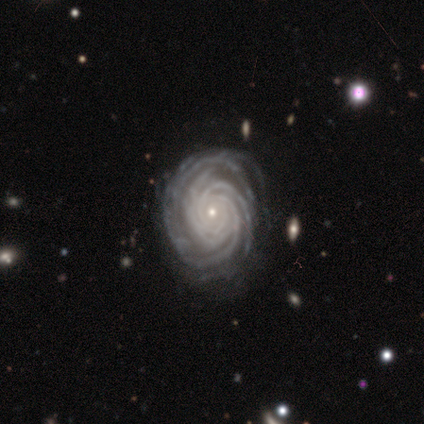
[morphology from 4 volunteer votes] Smooth or featured?
  - featured or disk: 75% *
  - smooth: 25%
  - star or artifact: 0%
Edge-on disk?
  - no: 100% *
  - yes: 0%
Bar?
  - no: 100% *
  - strong: 0%
  - weak: 0%
Spiral arms?
  - yes: 100% *
  - no: 0%
Spiral winding?
  - tight: 100% *
  - medium: 0%
  - loose: 0%
Spiral arm count?
  - 4: 67% *
  - more than 4: 33%
  - 1: 0%
  - 2: 0%
  - 3: 0%
  - can't tell: 0%
Bulge size?
  - small: 67% *
  - moderate: 33%
  - dominant: 0%
  - large: 0%
  - none: 0%
Merging?
  - none: 100% *
  - minor disturbance: 0%
  - major disturbance: 0%
  - merger: 0%